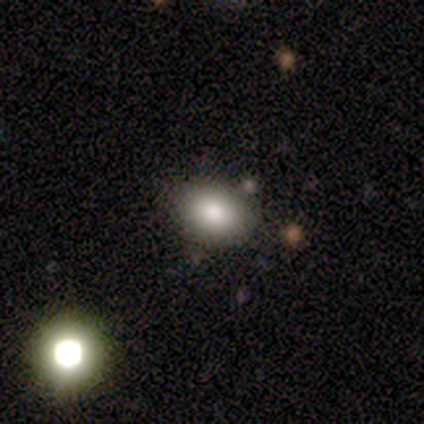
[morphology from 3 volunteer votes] Volunteers were most divided on "how rounded" (2-way tie): round: 50%, in between: 50%, cigar-shaped: 0%. More confident: smooth or featured — smooth (67%); merging — none (67%).